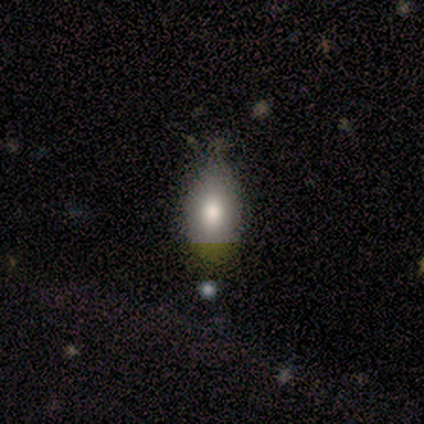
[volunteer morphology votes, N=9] Q: Smooth or featured?
A: smooth (78%); runner-up: featured or disk (11%)
Q: How rounded?
A: in between (86%); runner-up: round (14%)
Q: Merging?
A: none (50%); tied with: minor disturbance (50%)